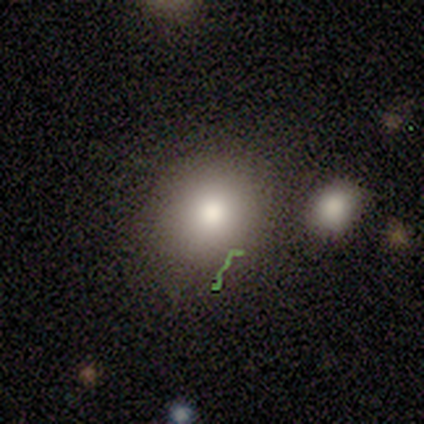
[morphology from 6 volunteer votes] Smooth or featured?
  - smooth: 50% *
  - star or artifact: 33%
  - featured or disk: 17%
How rounded?
  - round: 67% *
  - in between: 33%
  - cigar-shaped: 0%
Merging?
  - none: 50% * (tied)
  - minor disturbance: 50% * (tied)
  - major disturbance: 0%
  - merger: 0%